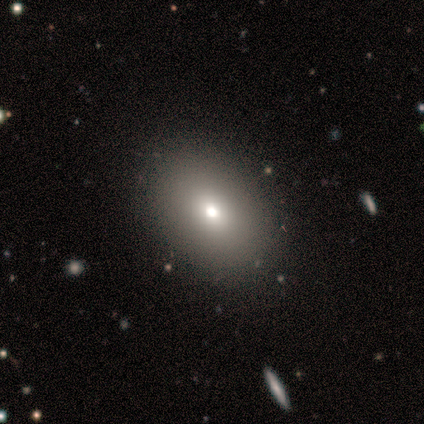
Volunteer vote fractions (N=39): Smooth or featured? smooth (77%)
How rounded? in between (77%)
Merging? none (81%)